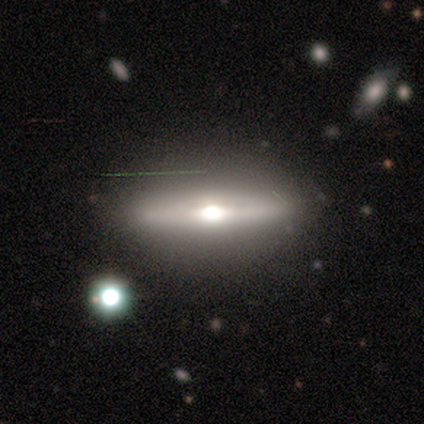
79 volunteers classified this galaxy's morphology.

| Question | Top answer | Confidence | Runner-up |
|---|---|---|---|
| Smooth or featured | featured or disk | 70% | smooth (23%) |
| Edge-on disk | yes | 98% | no (2%) |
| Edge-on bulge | rounded | 94% | boxy (6%) |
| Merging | none | 58% | minor disturbance (5%) |